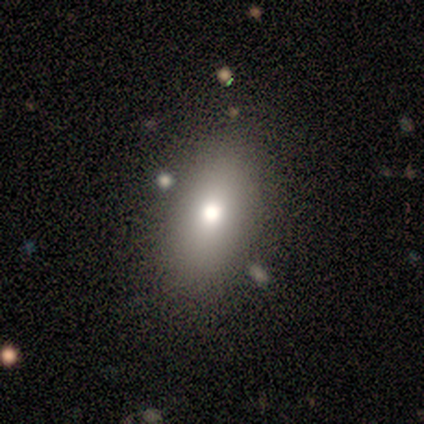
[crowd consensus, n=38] smooth-or-featured: smooth: 79% | star or artifact: 16% | featured or disk: 5%
  how-rounded: in between: 80% | round: 13% | cigar-shaped: 7%
  merging: none: 97% | minor disturbance: 3% | major disturbance: 0% | merger: 0%